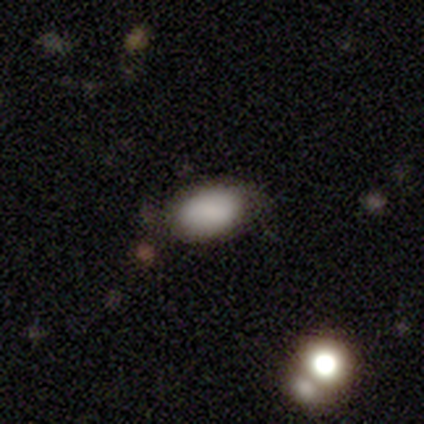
Volunteers were most divided on "smooth or featured": smooth: 60%, featured or disk: 20%, star or artifact: 20%. More confident: how rounded — in between (100%); merging — none (75%).